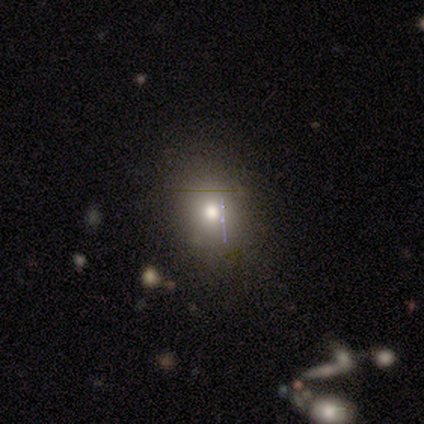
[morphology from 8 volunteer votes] Overall: smooth (62%; featured or disk 25%). How rounded: round (100%). Merging: none (86%).